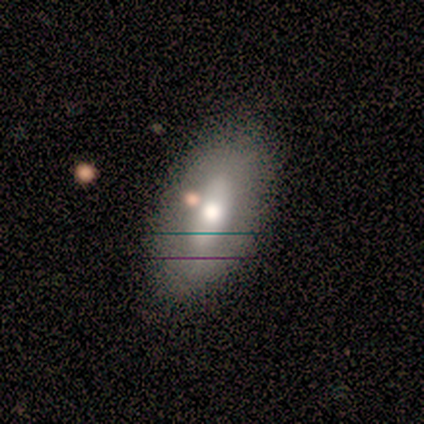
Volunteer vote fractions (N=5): Smooth or featured?
  - smooth: 40% * (tied)
  - featured or disk: 40% * (tied)
  - star or artifact: 20%
How rounded?
  - in between: 100% *
  - round: 0%
  - cigar-shaped: 0%
Merging?
  - none: 100% *
  - minor disturbance: 0%
  - major disturbance: 0%
  - merger: 0%